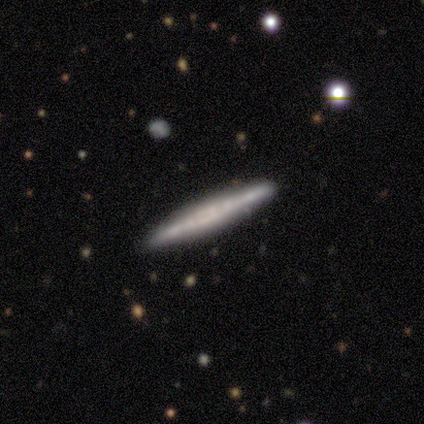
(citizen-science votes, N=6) Morphology: type=smooth (50%); roundness=cigar-shaped (100%); merging=none (80%).